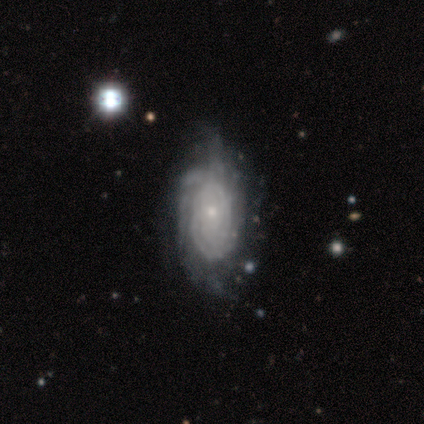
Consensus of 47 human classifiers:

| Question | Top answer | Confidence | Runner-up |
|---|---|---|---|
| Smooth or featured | featured or disk | 79% | smooth (17%) |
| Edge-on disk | no | 100% | — |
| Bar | no | 89% | weak (8%) |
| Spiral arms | yes | 86% | no (14%) |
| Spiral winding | tight | 84% | medium (12%) |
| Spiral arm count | can't tell | 62% | 3 (12%) |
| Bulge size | small | 65% | moderate (24%) |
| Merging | none | 42% | minor disturbance (38%) |